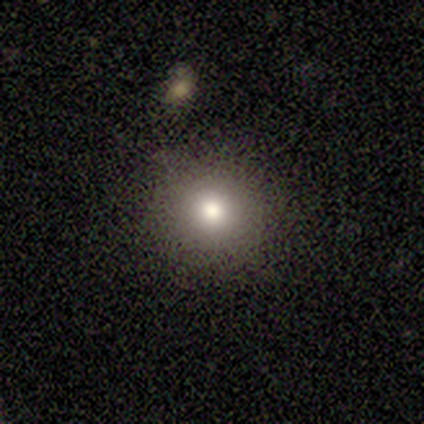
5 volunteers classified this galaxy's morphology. Volunteers were most divided on "smooth or featured": smooth: 60%, featured or disk: 40%, star or artifact: 0%. More confident: merging — none (100%); how rounded — round (67%).